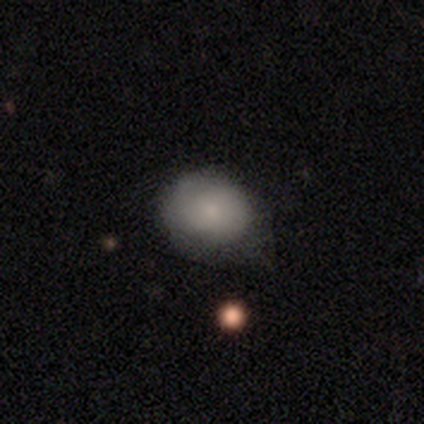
smooth 69%, featured or disk 23%, star or artifact 8%. Down the decision tree: how rounded — round (52%); merging — none (50%).